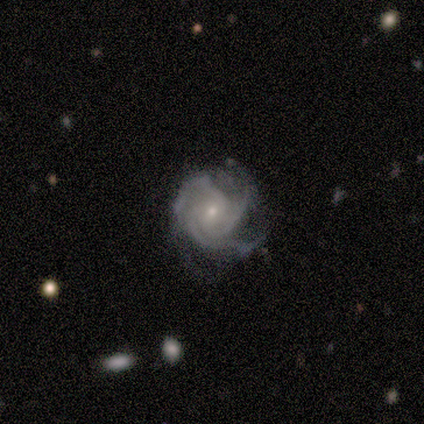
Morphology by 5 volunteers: A featured or disk galaxy (80%) with no bar (75%), 3 (100%) medium (75%) spiral arms (100%) and a small central bulge (100%).

Vote fractions:
- Smooth or featured? featured or disk: 80% / star or artifact: 20% / smooth: 0%
- Edge-on disk? no: 100% / yes: 0%
- Bar? no: 75% / weak: 25% / strong: 0%
- Spiral arms? yes: 100% / no: 0%
- Spiral winding? medium: 75% / tight: 25% / loose: 0%
- Spiral arm count? 3: 100% / 1: 0% / 2: 0% / 4: 0% / more than 4: 0% / can't tell: 0%
- Bulge size? small: 100% / dominant: 0% / large: 0% / moderate: 0% / none: 0%
- Merging? minor disturbance: 75% / none: 25% / major disturbance: 0% / merger: 0%